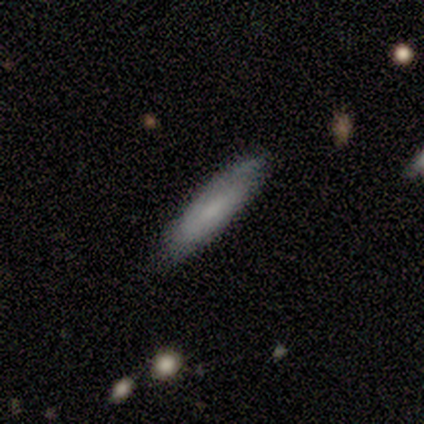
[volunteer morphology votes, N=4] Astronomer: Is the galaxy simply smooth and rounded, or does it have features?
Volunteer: smooth — 100%.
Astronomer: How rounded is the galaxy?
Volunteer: cigar-shaped — 75%.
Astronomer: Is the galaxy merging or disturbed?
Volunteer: none — 75%.